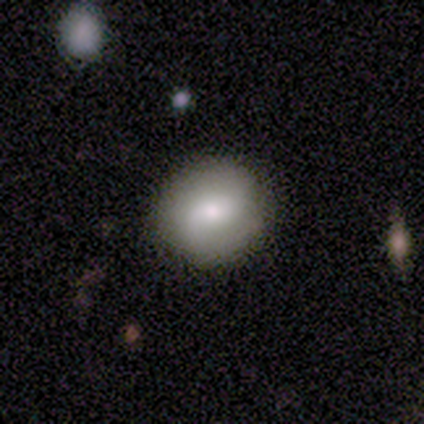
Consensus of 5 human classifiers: Smooth or featured? 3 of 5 (60%) said smooth. How rounded? 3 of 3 (100%) said round. Merging? 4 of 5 (80%) said none.